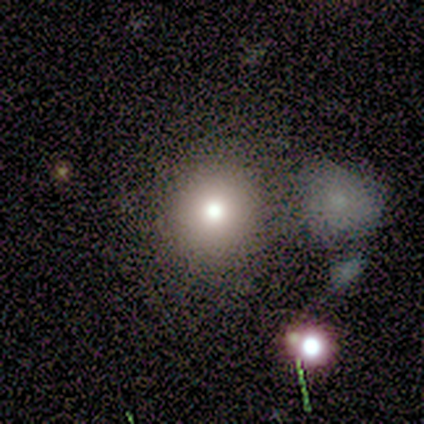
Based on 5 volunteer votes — Volunteers were most divided on "how rounded": round: 75%, in between: 25%, cigar-shaped: 0%. More confident: smooth or featured — smooth (80%); merging — none (80%).